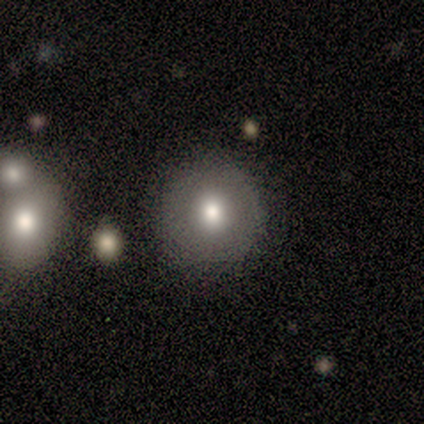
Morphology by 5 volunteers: A smooth galaxy with no disk features (60%) that is round (100%). Merging: none (60%).